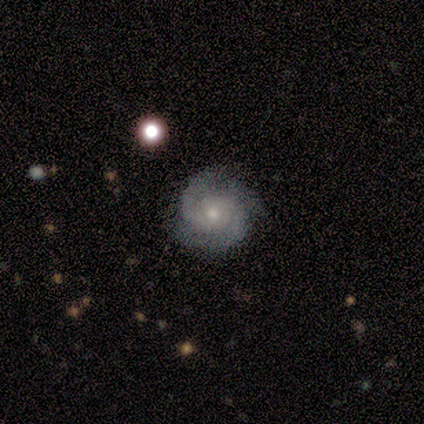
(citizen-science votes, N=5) Volunteers were most divided on "bulge size" (2-way tie): moderate: 40%, small: 40%, large: 20%, dominant: 0%, none: 0%. More confident: smooth or featured — featured or disk (100%); edge-on disk — no (100%); bar — no (80%); spiral arms — yes (80%); merging — none (80%); spiral winding — tight (75%); spiral arm count — 2 (75%).